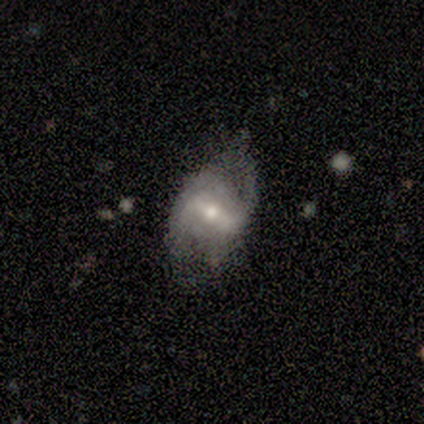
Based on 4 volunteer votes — Overall: smooth (50%, tied with featured or disk). How rounded: round (50%, tied with in between). Merging: none (50%, tied with major disturbance).